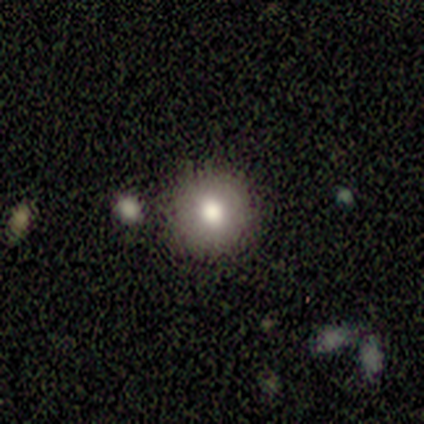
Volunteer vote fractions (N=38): A smooth galaxy with no disk features (82%) that is round (94%).

Vote fractions:
- Smooth or featured? smooth: 82% / featured or disk: 11% / star or artifact: 8%
- How rounded? round: 94% / in between: 6% / cigar-shaped: 0%
- Merging? none: 91% / merger: 6% / minor disturbance: 3% / major disturbance: 0%